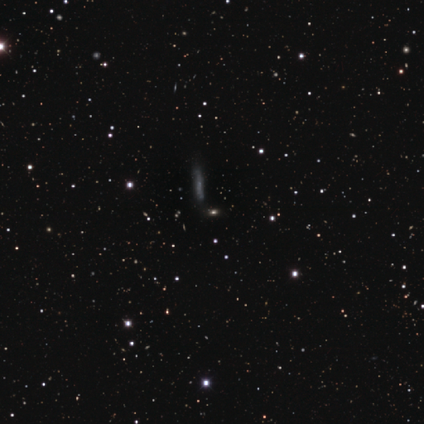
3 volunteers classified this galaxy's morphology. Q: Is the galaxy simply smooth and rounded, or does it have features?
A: smooth — 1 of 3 (33%, tied with featured or disk and star or artifact).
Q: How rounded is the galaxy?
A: in between — 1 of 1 (100%).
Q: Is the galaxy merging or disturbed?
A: none — 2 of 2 (100%).